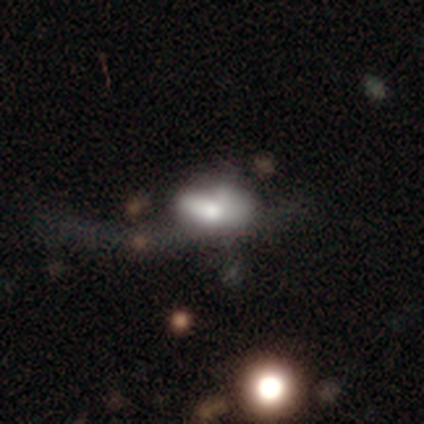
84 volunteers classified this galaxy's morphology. type=smooth (62%); roundness=in between (94%); merging=major disturbance (51%).